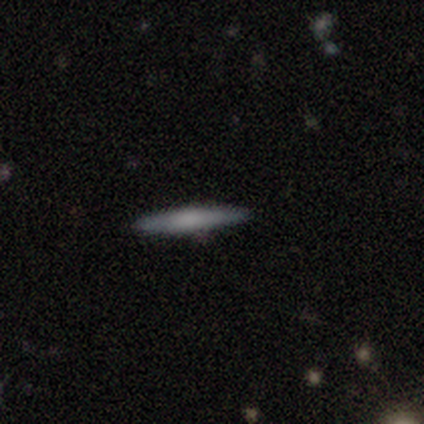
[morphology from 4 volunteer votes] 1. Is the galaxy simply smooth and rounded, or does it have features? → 75% smooth, 25% star or artifact, 0% featured or disk.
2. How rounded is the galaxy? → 100% cigar-shaped, 0% round, 0% in between.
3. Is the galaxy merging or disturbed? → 100% none, 0% minor disturbance, 0% major disturbance, 0% merger.